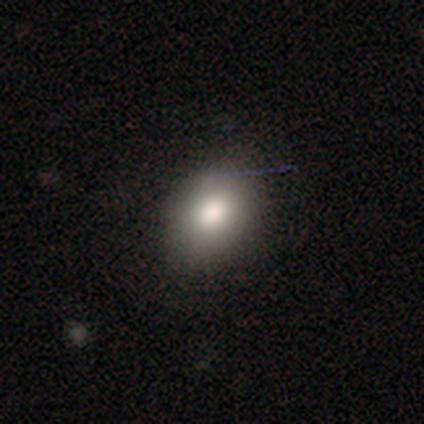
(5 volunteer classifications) Q: Smooth or featured?
A: smooth (100%)
Q: How rounded?
A: round (60%); runner-up: in between (40%)
Q: Merging?
A: none (60%); runner-up: minor disturbance (40%)